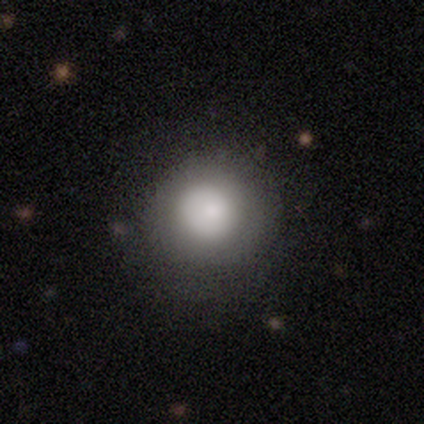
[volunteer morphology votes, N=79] smooth 82%, featured or disk 9%, star or artifact 9%. Down the decision tree: how rounded — round (92%); merging — none (40%).